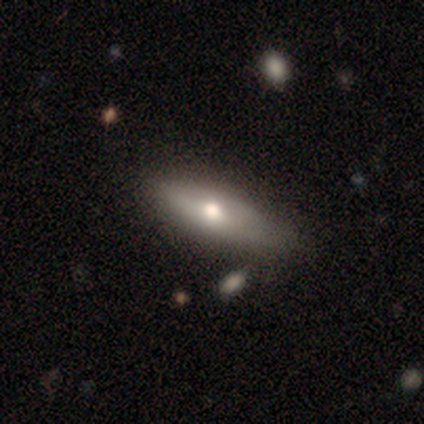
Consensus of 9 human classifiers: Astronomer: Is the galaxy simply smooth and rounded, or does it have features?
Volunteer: smooth — 56% (runner-up: featured or disk, 44%).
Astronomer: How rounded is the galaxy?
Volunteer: in between — 60% (runner-up: cigar-shaped, 40%).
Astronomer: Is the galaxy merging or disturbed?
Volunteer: none — 78%.